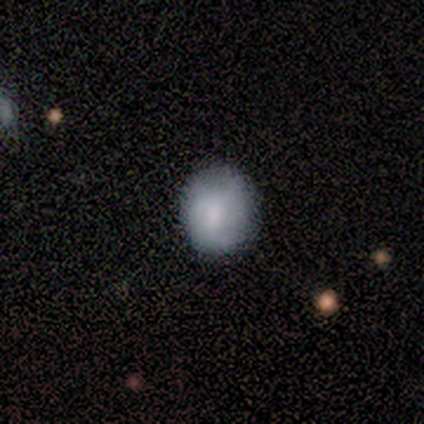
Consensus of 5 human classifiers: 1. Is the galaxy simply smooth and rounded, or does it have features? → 80% smooth, 20% featured or disk, 0% star or artifact.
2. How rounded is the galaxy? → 100% round, 0% in between, 0% cigar-shaped.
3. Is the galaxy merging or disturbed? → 100% none, 0% minor disturbance, 0% major disturbance, 0% merger.